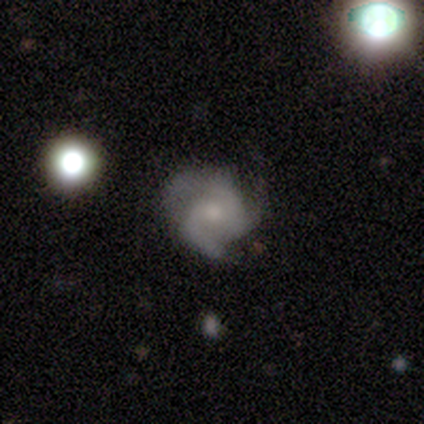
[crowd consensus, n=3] This appears to be a featured or disk galaxy (100%) with no bar (100%), 3 (100%) medium (100%) spiral arms (100%) and a small central bulge (67%). Merging: none (100%).